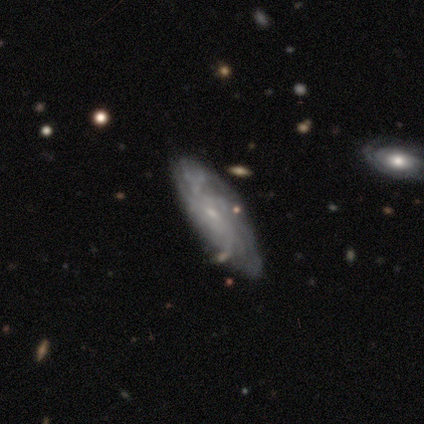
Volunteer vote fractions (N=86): A featured or disk galaxy (74%) with no bar (68%), tight (50%) spiral arms (89%) and a small central bulge (80%).

Vote fractions:
- Smooth or featured? featured or disk: 74% / smooth: 19% / star or artifact: 7%
- Edge-on disk? no: 88% / yes: 12%
- Bar? no: 68% / weak: 25% / strong: 7%
- Spiral arms? yes: 89% / no: 11%
- Spiral winding? tight: 50% / medium: 26% / loose: 24%
- Spiral arm count? can't tell: 62% / more than 4: 20% / 2: 6% / 3: 6% / 4: 6% / 1: 0%
- Bulge size? small: 80% / moderate: 11% / none: 9% / dominant: 0% / large: 0%
- Merging? none: 74% / minor disturbance: 21% / major disturbance: 2% / merger: 2%